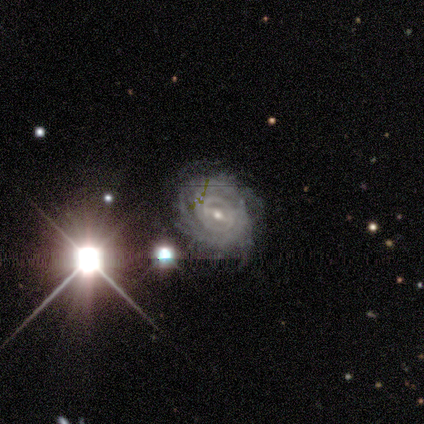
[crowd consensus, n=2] Smooth or featured? featured or disk (50%, tied with star or artifact)
Edge-on disk? no (100%)
Bar? weak (100%)
Spiral arms? yes (100%)
Spiral winding? tight (100%)
Spiral arm count? can't tell (100%)
Bulge size? moderate (100%)
Merging? none (100%)